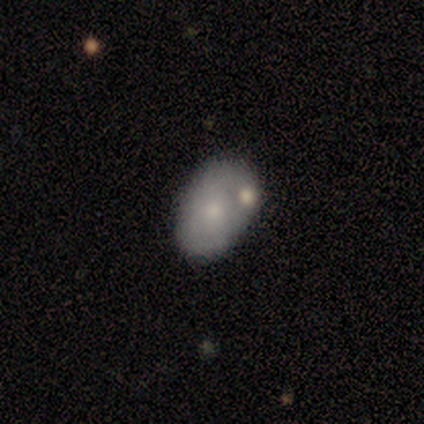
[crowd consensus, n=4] Smooth or featured: smooth — 50% (tied with featured or disk — 50%)
How rounded: in between — 100%
Merging: none — 50% (tied with minor disturbance — 50%)